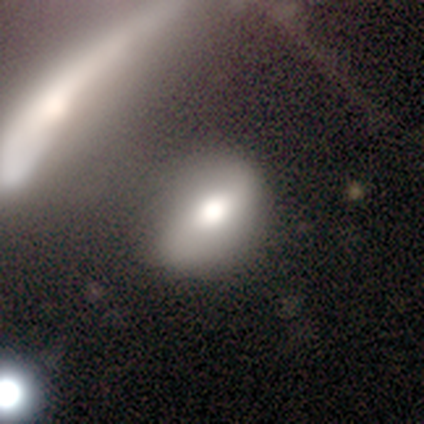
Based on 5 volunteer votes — smooth-or-featured: featured or disk: 40% (tied) | star or artifact: 40% (tied) | smooth: 20%
  disk-edge-on: no: 100% | yes: 0%
    bar: no: 100% | strong: 0% | weak: 0%
    has-spiral-arms: yes: 100% | no: 0%
      spiral-winding: loose: 100% | tight: 0% | medium: 0%
      spiral-arm-count: 2: 100% | 1: 0% | 3: 0% | 4: 0% | more than 4: 0% | can't tell: 0%
    bulge-size: moderate: 100% | dominant: 0% | large: 0% | small: 0% | none: 0%
  merging: minor disturbance: 67% | none: 33% | major disturbance: 0% | merger: 0%